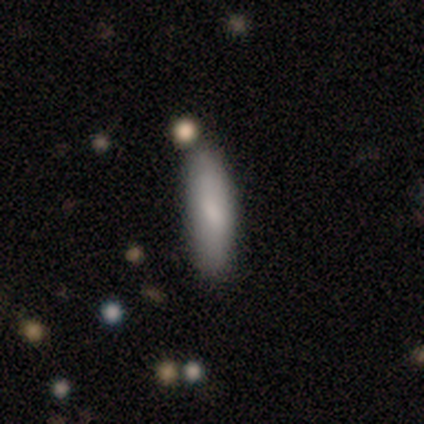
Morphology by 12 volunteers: A smooth galaxy with no disk features (83%) that is cigar-shaped (90%). Merging: none (75%).